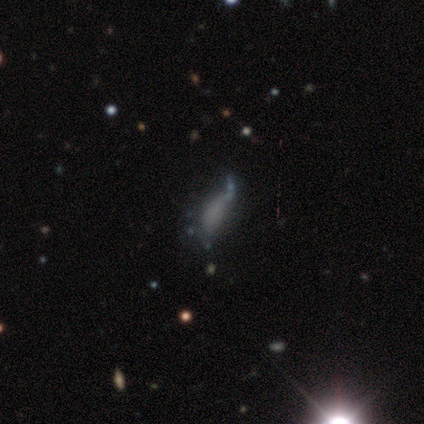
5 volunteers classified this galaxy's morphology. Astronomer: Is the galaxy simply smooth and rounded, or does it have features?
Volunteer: smooth — 80%.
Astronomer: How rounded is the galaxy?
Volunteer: in between — 75%.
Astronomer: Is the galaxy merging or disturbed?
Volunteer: none — 40%, tied with major disturbance at 40%.